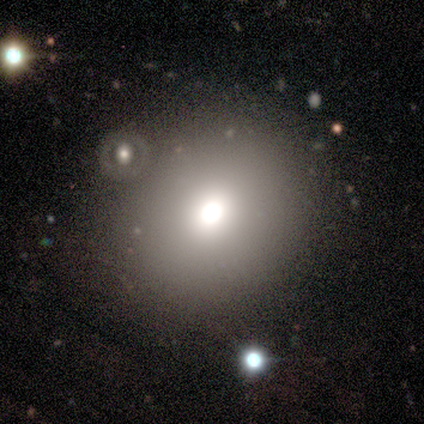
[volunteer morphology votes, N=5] A smooth galaxy with no disk features (100%) that is round (100%).

Vote fractions:
- Smooth or featured? smooth: 100% / featured or disk: 0% / star or artifact: 0%
- How rounded? round: 100% / in between: 0% / cigar-shaped: 0%
- Merging? none: 80% / merger: 20% / minor disturbance: 0% / major disturbance: 0%